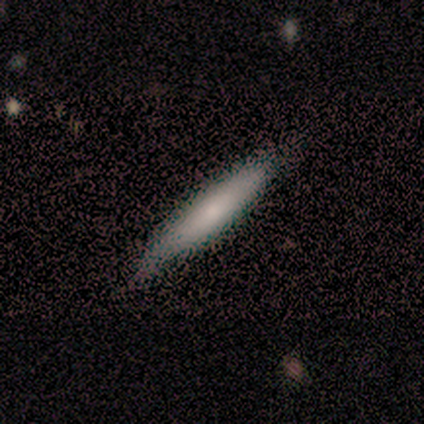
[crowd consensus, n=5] Smooth or featured? smooth (60%)
How rounded? cigar-shaped (67%)
Merging? none (100%)